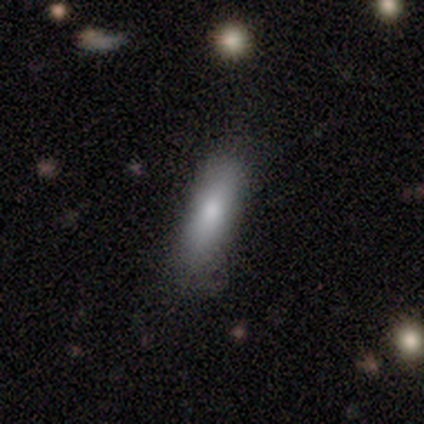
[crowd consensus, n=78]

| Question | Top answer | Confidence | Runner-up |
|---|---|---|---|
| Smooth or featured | smooth | 81% | featured or disk (14%) |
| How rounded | in between | 51% | cigar-shaped (48%) |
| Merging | none | 45% | minor disturbance (14%) |